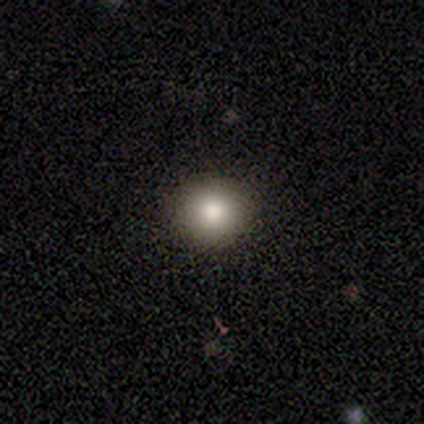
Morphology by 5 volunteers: type=smooth (60%); roundness=round (100%); merging=none (67%).